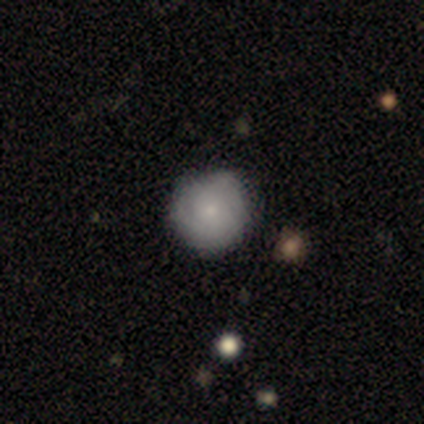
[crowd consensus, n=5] Q: Smooth or featured?
A: smooth (60%); runner-up: featured or disk (40%)
Q: How rounded?
A: round (100%)
Q: Merging?
A: none (80%); runner-up: major disturbance (20%)